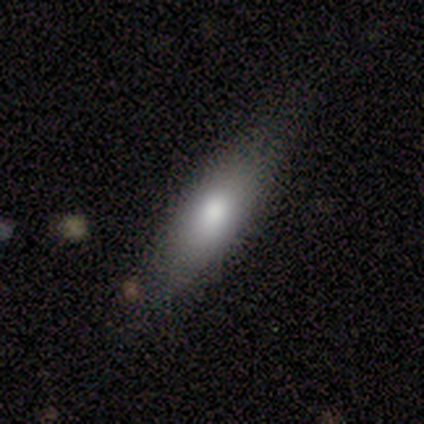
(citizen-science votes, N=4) Q: Smooth or featured?
A: smooth (75%); runner-up: featured or disk (25%)
Q: How rounded?
A: cigar-shaped (67%); runner-up: in between (33%)
Q: Merging?
A: minor disturbance (75%); runner-up: none (25%)